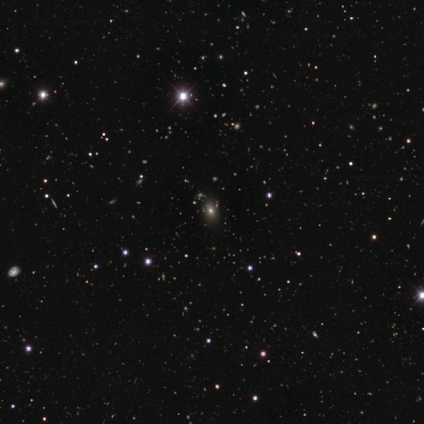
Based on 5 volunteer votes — Smooth or featured? star or artifact (60%)